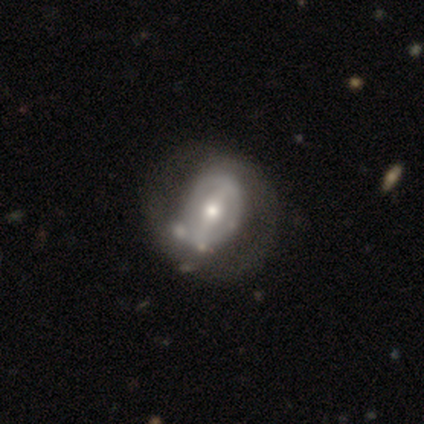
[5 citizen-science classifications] Smooth or featured?
  - featured or disk: 80% *
  - smooth: 20%
  - star or artifact: 0%
Edge-on disk?
  - no: 100% *
  - yes: 0%
Bar?
  - strong: 75% *
  - weak: 25%
  - no: 0%
Spiral arms?
  - no: 75% *
  - yes: 25%
Bulge size?
  - moderate: 100% *
  - dominant: 0%
  - large: 0%
  - small: 0%
  - none: 0%
Merging?
  - none: 40% *
  - minor disturbance: 20%
  - major disturbance: 20%
  - merger: 20%